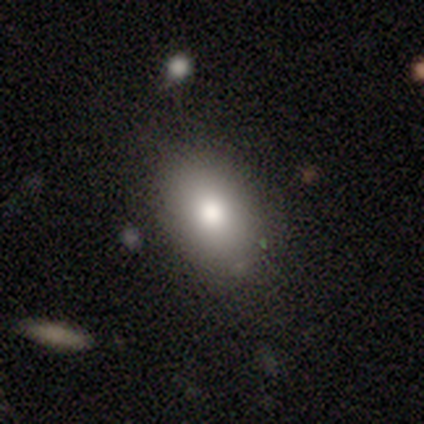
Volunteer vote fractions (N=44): smooth_or_featured: smooth (p=0.82) [alt: featured or disk p=0.11]
how_rounded: in between (p=0.86) [alt: cigar-shaped p=0.08]
merging: none (p=0.78) [alt: minor disturbance p=0.12]